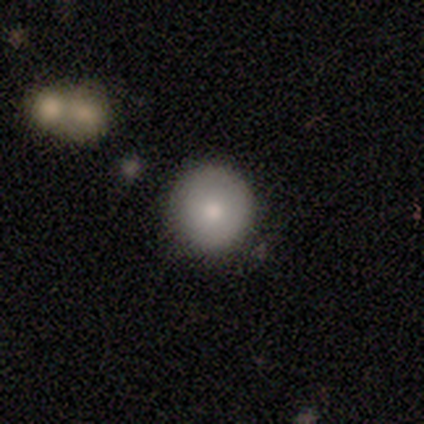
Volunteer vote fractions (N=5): Volunteers were most divided on "smooth or featured": smooth: 80%, featured or disk: 20%, star or artifact: 0%. More confident: how rounded — round (100%); merging — none (100%).